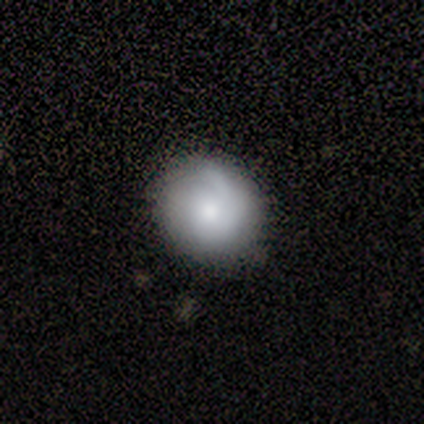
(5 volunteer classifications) Volunteers were most divided on "how rounded": round: 75%, in between: 25%, cigar-shaped: 0%. More confident: smooth or featured — smooth (80%); merging — none (80%).